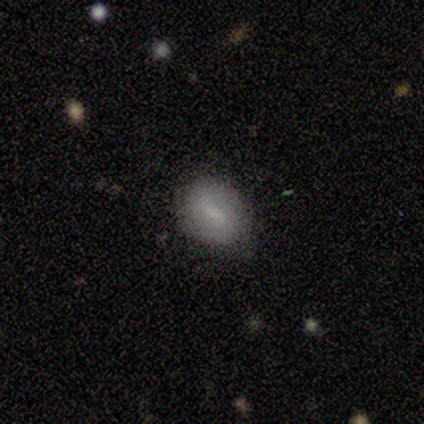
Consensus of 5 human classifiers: A featured or disk galaxy (80%) with no bar (75%), no spiral arms (75%) and a moderate central bulge (50%). Merging: none (100%).